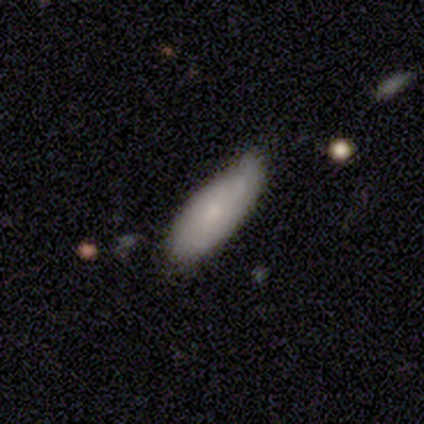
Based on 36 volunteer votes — smooth_or_featured: smooth (p=0.72) [alt: featured or disk p=0.28]
how_rounded: in between (p=0.69) [alt: cigar-shaped p=0.31]
merging: none (p=0.58) [alt: minor disturbance p=0.36]